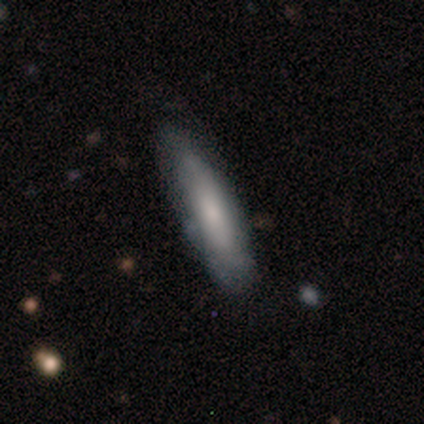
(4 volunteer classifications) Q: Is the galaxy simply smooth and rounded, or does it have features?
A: smooth — 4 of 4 (100%).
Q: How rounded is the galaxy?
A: cigar-shaped — 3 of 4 (75%).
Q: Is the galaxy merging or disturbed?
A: none — 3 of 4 (75%).